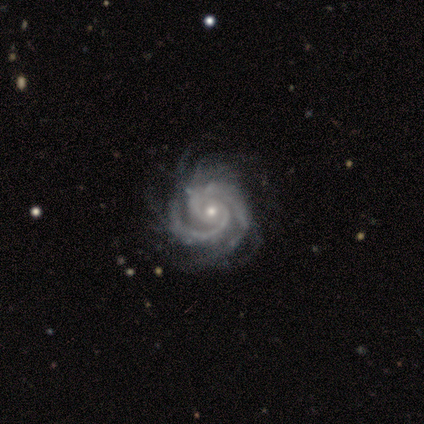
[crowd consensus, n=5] Smooth or featured? featured or disk (100%)
Edge-on disk? no (100%)
Bar? no (60%)
Spiral arms? yes (100%)
Spiral winding? tight (100%)
Spiral arm count? 2 (60%)
Bulge size? small (80%)
Merging? none (80%)